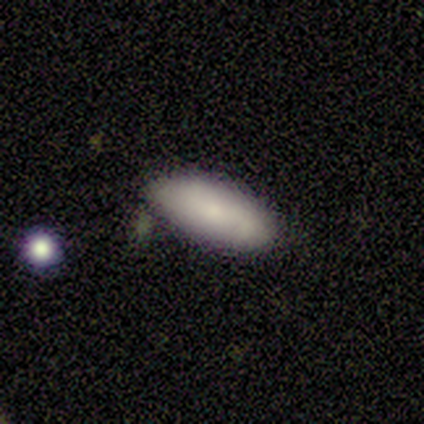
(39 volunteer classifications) Volunteers were most divided on "merging": none: 71%, minor disturbance: 18%, major disturbance: 5%, merger: 5%. More confident: how rounded — in between (85%); smooth or featured — smooth (85%).